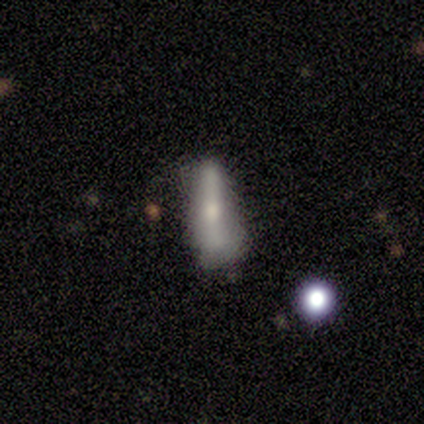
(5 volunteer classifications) Morphology: type=smooth (80%); roundness=cigar-shaped (75%); merging=minor disturbance (60%).